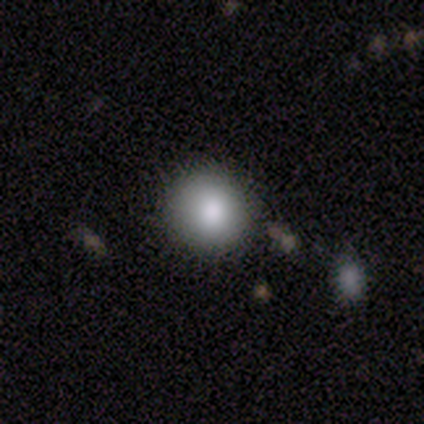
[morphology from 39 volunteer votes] Smooth or featured: smooth — 82% (featured or disk — 10%)
How rounded: round — 88% (in between — 12%)
Merging: none — 78% (minor disturbance — 14%)